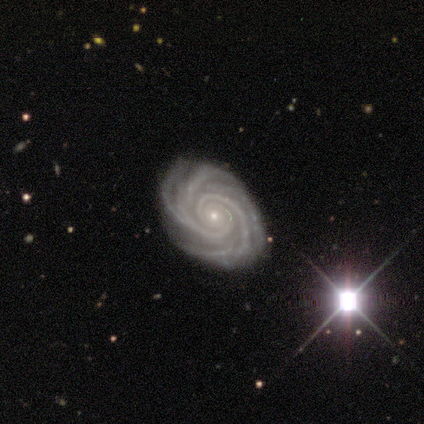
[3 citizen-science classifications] Smooth or featured? 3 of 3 (100%) said featured or disk. Edge-on disk? 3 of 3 (100%) said no. Bar? 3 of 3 (100%) said no. Spiral arms? 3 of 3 (100%) said yes. Spiral winding? 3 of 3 (100%) said tight. Spiral arm count? 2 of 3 (67%) said 4. Bulge size? 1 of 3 (33%, tied with small and none) said moderate. Merging? 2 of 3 (67%) said none.